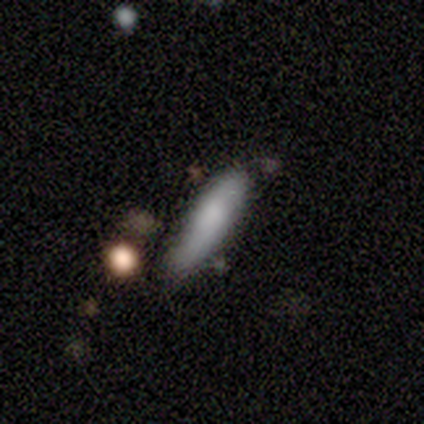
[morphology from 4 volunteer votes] Volunteers were most divided on "merging": none: 50%, minor disturbance: 25%, merger: 25%, major disturbance: 0%. More confident: smooth or featured — smooth (100%); how rounded — cigar-shaped (75%).